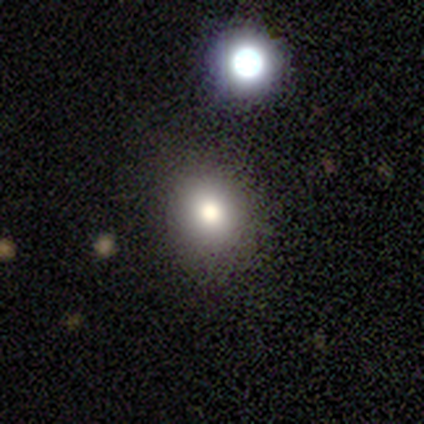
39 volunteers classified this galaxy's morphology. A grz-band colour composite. It shows a smooth galaxy with no disk features (82%) that is round (78%). Merging: none (88%).